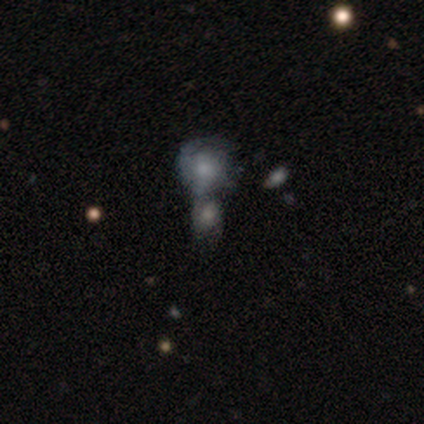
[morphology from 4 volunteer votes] Smooth or featured? 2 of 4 (50%) said featured or disk. Edge-on disk? 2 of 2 (100%) said no. Bar? 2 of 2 (100%) said no. Spiral arms? 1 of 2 (50%, tied with no) said yes. Spiral winding? 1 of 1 (100%) said medium. Spiral arm count? 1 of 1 (100%) said can't tell. Bulge size? 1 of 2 (50%, tied with small) said moderate. Merging? 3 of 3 (100%) said merger.